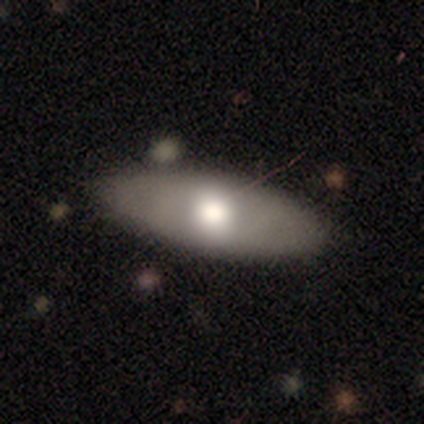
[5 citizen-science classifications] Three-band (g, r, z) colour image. It shows a smooth galaxy with no disk features (40%, tied with featured or disk) that is in between round and cigar-shaped (100%). Merging: none (100%).